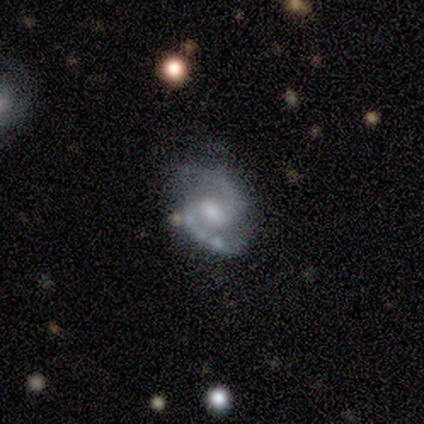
Smooth or featured? featured or disk (75%)
Edge-on disk? no (100%)
Bar? weak (67%)
Spiral arms? yes (100%)
Spiral winding? loose (100%)
Spiral arm count? 2 (100%)
Bulge size? moderate (33%, tied with small and none)
Merging? none (50%, tied with minor disturbance)